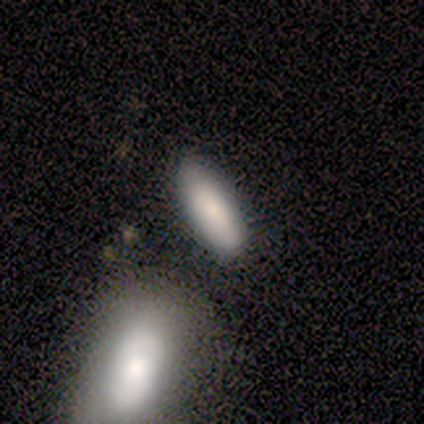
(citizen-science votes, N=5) This is clearly a smooth galaxy (100%). How rounded: clearly in between (100%). Merging: clearly none (100%).